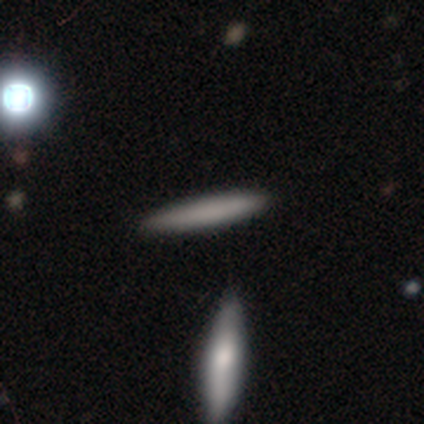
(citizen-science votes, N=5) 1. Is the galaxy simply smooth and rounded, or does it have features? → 80% smooth, 20% star or artifact, 0% featured or disk.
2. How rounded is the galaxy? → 100% cigar-shaped, 0% round, 0% in between.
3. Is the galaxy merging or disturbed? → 100% none, 0% minor disturbance, 0% major disturbance, 0% merger.